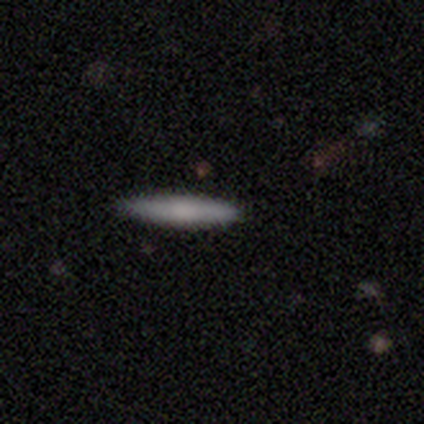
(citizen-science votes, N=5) smooth 60%, featured or disk 40%, star or artifact 0%. Down the decision tree: how rounded — cigar-shaped (100%); merging — none (100%).